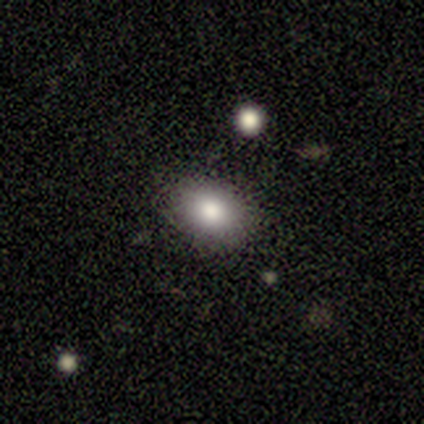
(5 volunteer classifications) A smooth galaxy with no disk features (80%) that is in between round and cigar-shaped (100%).

Vote fractions:
- Smooth or featured? smooth: 80% / star or artifact: 20% / featured or disk: 0%
- How rounded? in between: 100% / round: 0% / cigar-shaped: 0%
- Merging? none: 75% / minor disturbance: 25% / major disturbance: 0% / merger: 0%